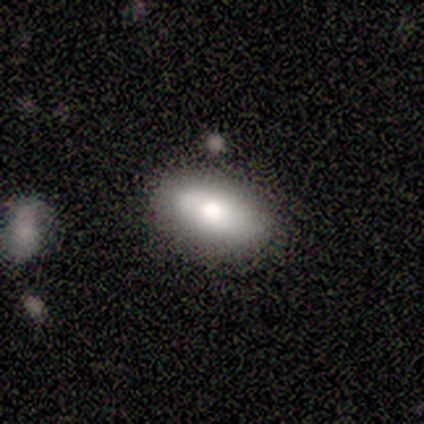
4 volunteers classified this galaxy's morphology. type=smooth (100%); roundness=in between (100%); merging=none (50%).